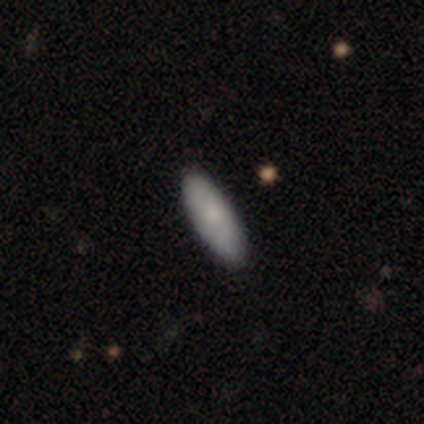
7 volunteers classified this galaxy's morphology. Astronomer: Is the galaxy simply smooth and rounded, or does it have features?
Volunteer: smooth — 71%.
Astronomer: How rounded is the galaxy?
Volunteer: in between — 80%.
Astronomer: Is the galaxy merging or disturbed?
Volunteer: none — 71%.